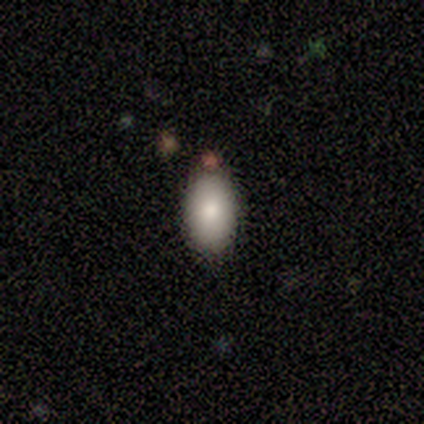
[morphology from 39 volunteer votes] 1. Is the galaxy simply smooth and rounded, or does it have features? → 85% smooth, 13% star or artifact, 3% featured or disk.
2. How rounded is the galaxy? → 94% in between, 6% round, 0% cigar-shaped.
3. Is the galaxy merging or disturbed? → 79% none, 15% minor disturbance, 3% major disturbance, 3% merger.